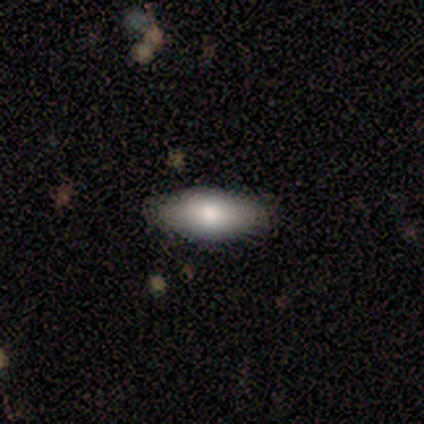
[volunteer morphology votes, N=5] A smooth galaxy with no disk features (80%) that is in between round and cigar-shaped (100%). Merging: none (100%).